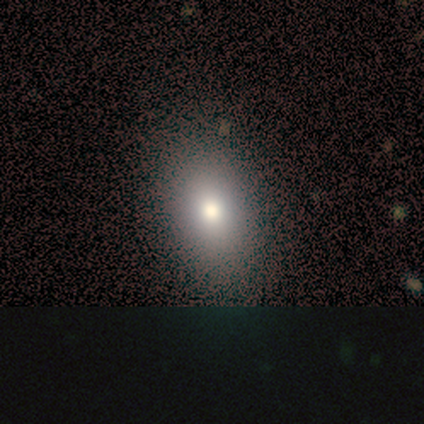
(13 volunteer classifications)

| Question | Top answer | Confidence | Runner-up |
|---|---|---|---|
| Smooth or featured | smooth | 100% | — |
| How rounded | in between | 100% | — |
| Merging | none | 69% | minor disturbance (31%) |